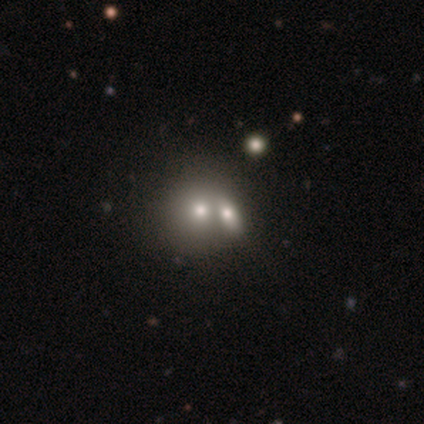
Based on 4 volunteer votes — smooth_or_featured: smooth (p=0.50) [alt: featured or disk p=0.25]
how_rounded: round (p=1.00)
merging: merger (p=0.67) [alt: none p=0.33]